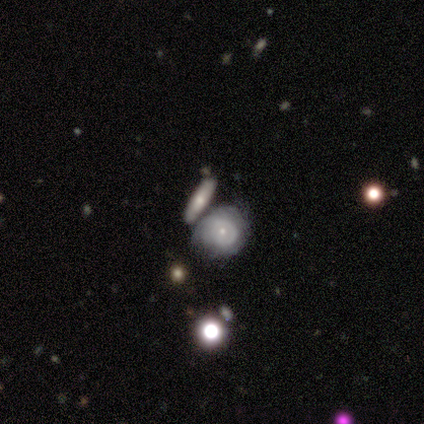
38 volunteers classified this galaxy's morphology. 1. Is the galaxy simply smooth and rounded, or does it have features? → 66% featured or disk, 24% smooth, 11% star or artifact.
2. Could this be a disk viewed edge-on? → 92% no, 8% yes.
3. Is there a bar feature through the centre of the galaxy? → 83% no, 17% weak, 0% strong.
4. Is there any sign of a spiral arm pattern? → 61% yes, 39% no.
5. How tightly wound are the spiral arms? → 79% tight, 14% medium, 7% loose.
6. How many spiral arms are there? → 79% can't tell, 7% 1, 7% 2, 7% more than 4, 0% 3, 0% 4.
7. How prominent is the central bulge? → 87% small, 9% moderate, 4% dominant, 0% large, 0% none.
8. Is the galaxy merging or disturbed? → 44% none, 35% merger, 12% minor disturbance, 9% major disturbance.